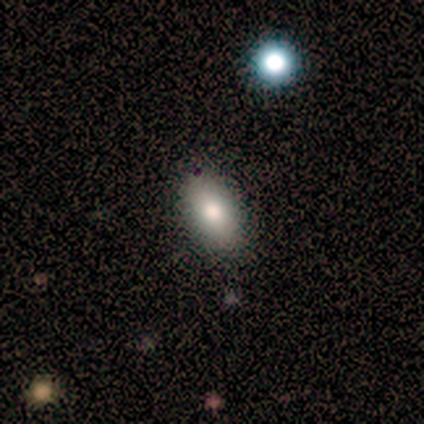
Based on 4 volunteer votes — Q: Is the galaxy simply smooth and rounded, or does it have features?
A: smooth — 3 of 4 (75%).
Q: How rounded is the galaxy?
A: in between — 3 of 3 (100%).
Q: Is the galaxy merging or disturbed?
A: none — 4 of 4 (100%).